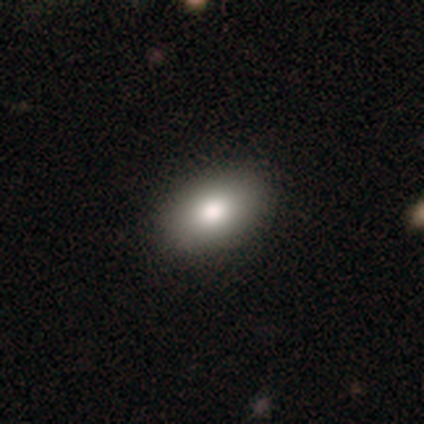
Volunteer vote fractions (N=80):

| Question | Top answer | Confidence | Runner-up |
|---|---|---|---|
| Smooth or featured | smooth | 80% | featured or disk (12%) |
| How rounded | in between | 100% | — |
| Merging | none | 50% | minor disturbance (1%) |